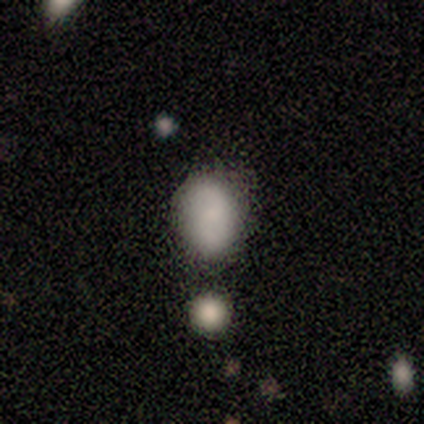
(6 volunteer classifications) smooth 50%, featured or disk 33%, star or artifact 17%. Down the decision tree: how rounded — in between (100%); merging — none (80%).